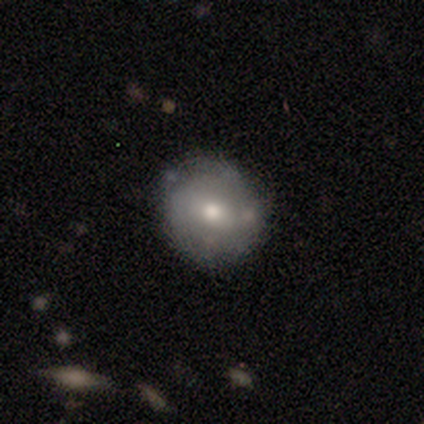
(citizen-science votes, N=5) Volunteers were most divided on "how rounded": round: 80%, in between: 20%, cigar-shaped: 0%. More confident: smooth or featured — smooth (100%); merging — none (100%).